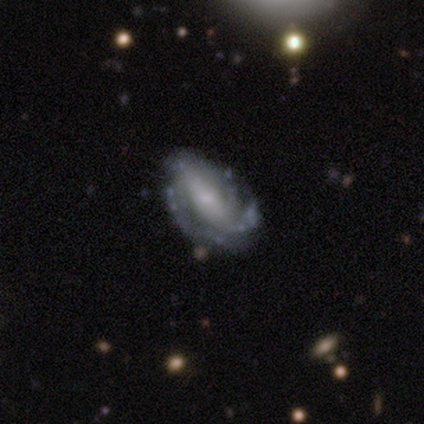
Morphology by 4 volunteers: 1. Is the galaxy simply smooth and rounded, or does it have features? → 100% featured or disk, 0% smooth, 0% star or artifact.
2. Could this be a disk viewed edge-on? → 100% no, 0% yes.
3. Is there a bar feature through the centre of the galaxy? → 75% strong, 25% no, 0% weak.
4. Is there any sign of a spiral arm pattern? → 100% yes, 0% no.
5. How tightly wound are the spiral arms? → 50% tight (tied), 50% medium (tied), 0% loose.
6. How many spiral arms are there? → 75% can't tell, 25% 3, 0% 1, 0% 2, 0% 4, 0% more than 4.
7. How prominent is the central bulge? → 75% small, 25% moderate, 0% dominant, 0% large, 0% none.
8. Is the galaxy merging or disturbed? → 100% none, 0% minor disturbance, 0% major disturbance, 0% merger.